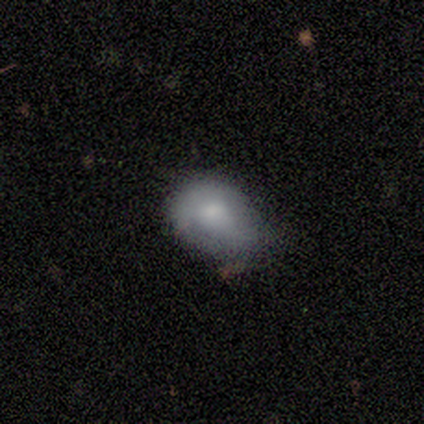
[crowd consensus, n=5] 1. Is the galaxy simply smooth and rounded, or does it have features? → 60% smooth, 40% featured or disk, 0% star or artifact.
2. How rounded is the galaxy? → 67% in between, 33% round, 0% cigar-shaped.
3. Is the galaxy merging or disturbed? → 40% minor disturbance (tied), 40% major disturbance (tied), 20% none, 0% merger.